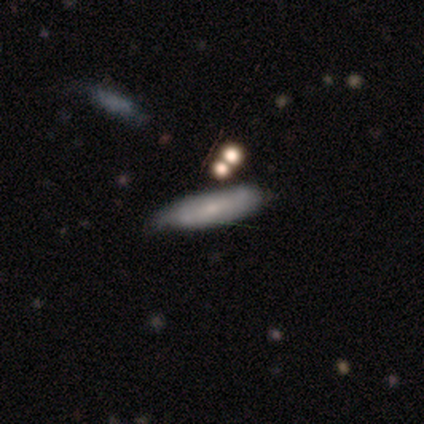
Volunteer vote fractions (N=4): A smooth galaxy with no disk features (75%) that is cigar-shaped (100%). Merging: none (50%, tied with minor disturbance).